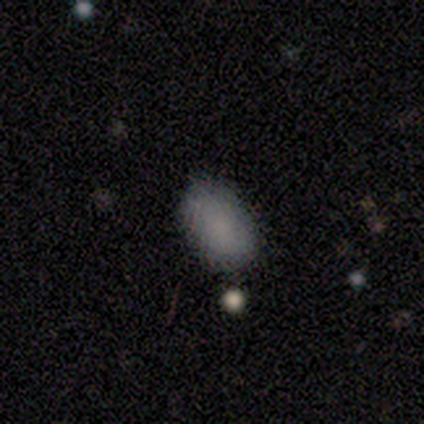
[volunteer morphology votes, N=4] A smooth galaxy with no disk features (100%) that is in between round and cigar-shaped (100%). Merging: none (75%).